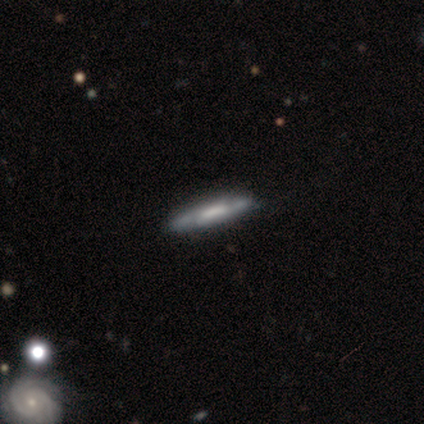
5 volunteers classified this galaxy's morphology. type=featured or disk (60%); edge-on=yes (100%); edge-on bulge=boxy (67%); merging=none (100%).